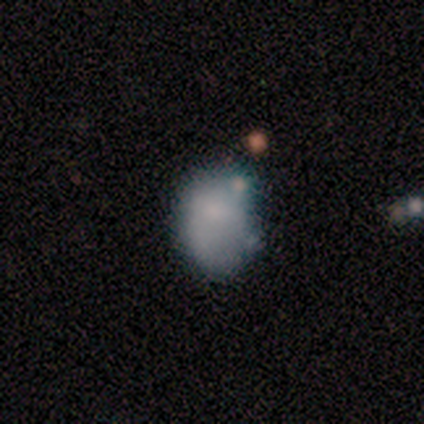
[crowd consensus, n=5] Smooth or featured: smooth — 60% (featured or disk — 20%)
How rounded: in between — 67% (round — 33%)
Merging: none — 25% (tied with minor disturbance — 25%; major disturbance — 25%; merger — 25%)